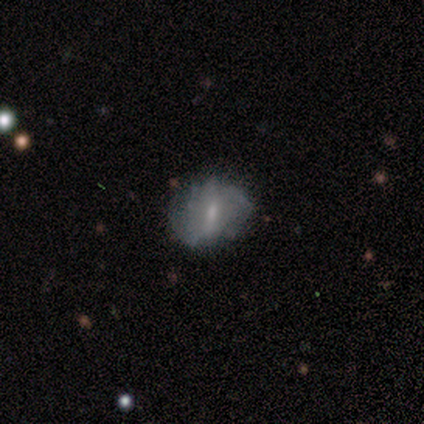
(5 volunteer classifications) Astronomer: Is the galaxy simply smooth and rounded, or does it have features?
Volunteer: featured or disk — 60% (runner-up: smooth, 40%).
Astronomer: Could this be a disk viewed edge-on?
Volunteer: no — 100%.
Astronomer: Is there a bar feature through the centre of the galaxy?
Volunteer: weak — 67%.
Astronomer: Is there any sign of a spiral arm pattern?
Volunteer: no — 100%.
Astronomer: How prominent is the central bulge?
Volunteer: moderate — 67%.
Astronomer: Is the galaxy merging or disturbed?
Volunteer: none — 60% (runner-up: minor disturbance, 40%).